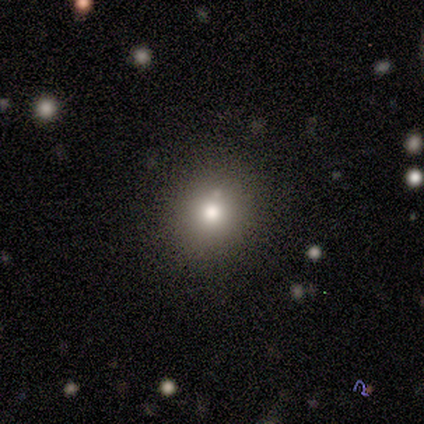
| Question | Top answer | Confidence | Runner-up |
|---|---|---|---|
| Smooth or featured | smooth | 80% | star or artifact (20%) |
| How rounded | round | 75% | in between (25%) |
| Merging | none | 100% | — |